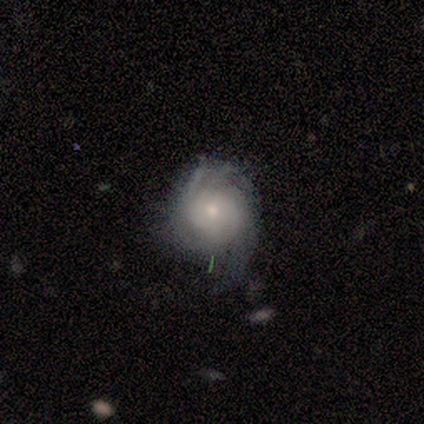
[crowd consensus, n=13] This appears to be a featured or disk galaxy (92%) with no bar (100%), tight (58%) spiral arms (100%) and a small central bulge (67%). Merging: none (58%).